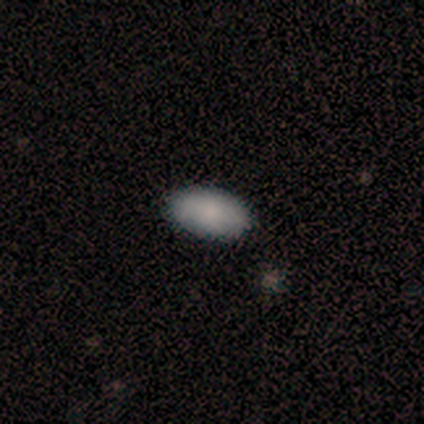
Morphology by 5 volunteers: Volunteers were most divided on "smooth or featured": smooth: 60%, featured or disk: 20%, star or artifact: 20%. More confident: how rounded — in between (100%); merging — none (100%).